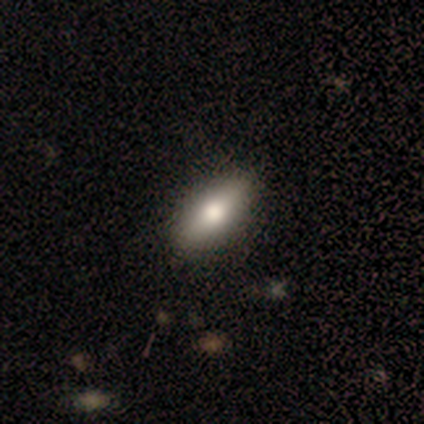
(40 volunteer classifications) A smooth galaxy with no disk features (65%) that is in between round and cigar-shaped (65%).

Vote fractions:
- Smooth or featured? smooth: 65% / featured or disk: 20% / star or artifact: 15%
- How rounded? in between: 65% / cigar-shaped: 31% / round: 4%
- Merging? none: 85% / minor disturbance: 12% / major disturbance: 3% / merger: 0%